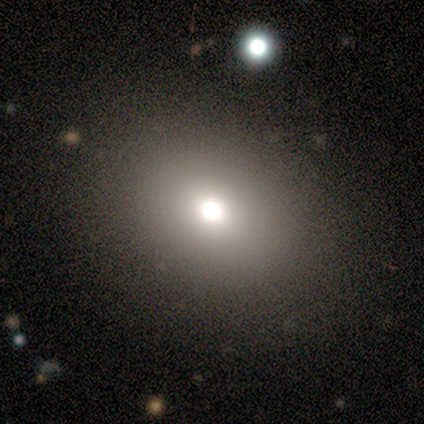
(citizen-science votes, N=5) Volunteers were most divided on "smooth or featured" (2-way tie): smooth: 40%, featured or disk: 40%, star or artifact: 20%. More confident: how rounded — in between (100%); merging — none (75%).